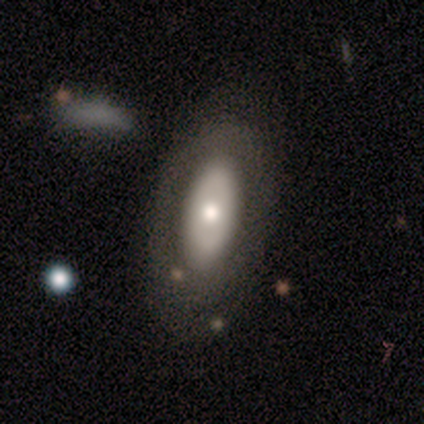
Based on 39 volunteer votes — Smooth or featured? 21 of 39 (54%) said featured or disk. Edge-on disk? 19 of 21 (90%) said no. Bar? 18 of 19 (95%) said no. Spiral arms? 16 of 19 (84%) said no. Bulge size? 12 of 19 (63%) said moderate. Merging? 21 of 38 (55%) said none.